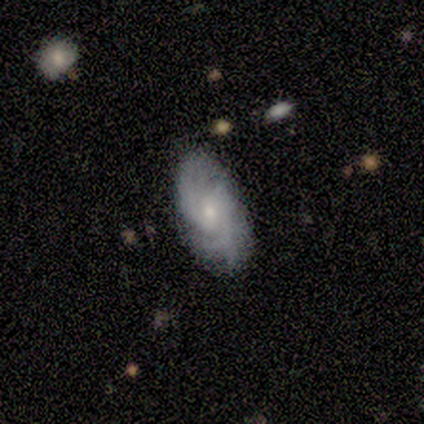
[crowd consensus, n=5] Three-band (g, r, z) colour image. It shows a featured or disk galaxy (80%) with no bar (100%), medium (100%) spiral arms (100%) and a small central bulge (100%). Merging: none (80%).